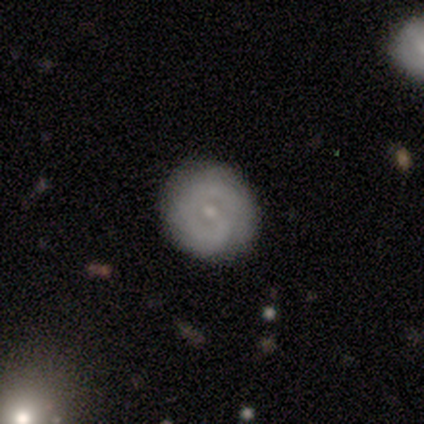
Smooth or featured?
  - featured or disk: 64% *
  - smooth: 30%
  - star or artifact: 6%
Edge-on disk?
  - no: 100% *
  - yes: 0%
Bar?
  - no: 59% *
  - weak: 35%
  - strong: 6%
Spiral arms?
  - yes: 76% *
  - no: 24%
Spiral winding?
  - tight: 73% *
  - medium: 15%
  - loose: 12%
Spiral arm count?
  - can't tell: 50% *
  - 1: 27%
  - 2: 19%
  - 3: 4%
  - 4: 0%
  - more than 4: 0%
Bulge size?
  - small: 59% *
  - moderate: 29%
  - none: 9%
  - large: 3%
  - dominant: 0%
Merging?
  - none: 84% *
  - minor disturbance: 8%
  - major disturbance: 6%
  - merger: 2%